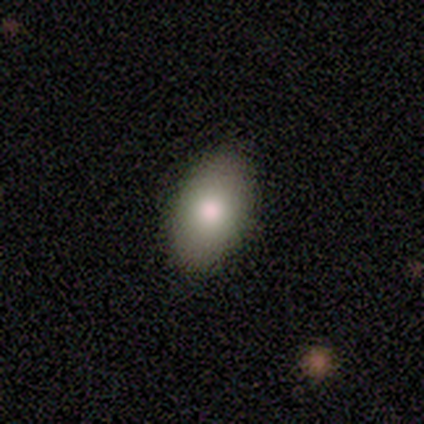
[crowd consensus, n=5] Morphology: type=smooth (100%); roundness=in between (100%); merging=none (60%).